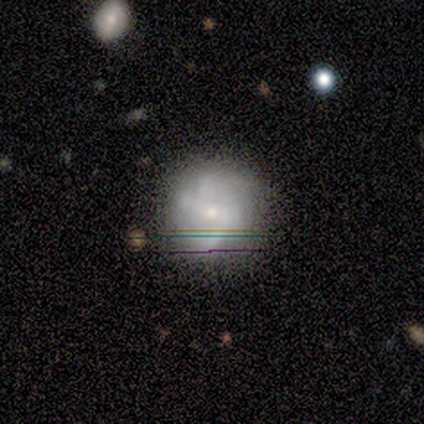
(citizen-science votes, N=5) Smooth or featured? featured or disk (80%)
Edge-on disk? no (100%)
Bar? weak (50%, tied with no)
Spiral arms? yes (75%)
Spiral winding? medium (67%)
Spiral arm count? 2 (33%, tied with 3 and can't tell)
Bulge size? small (75%)
Merging? none (80%)